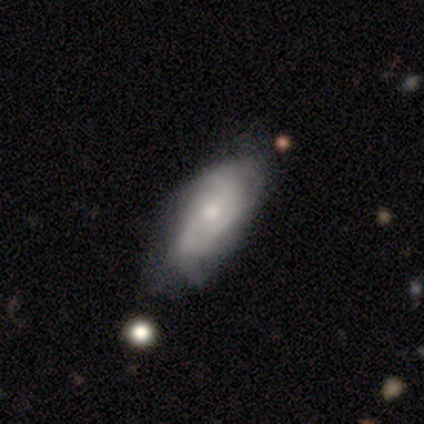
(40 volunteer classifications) Q: Smooth or featured?
A: featured or disk (65%); runner-up: smooth (30%)
Q: Edge-on disk?
A: no (88%); runner-up: yes (12%)
Q: Bar?
A: no (74%); runner-up: weak (22%)
Q: Spiral arms?
A: yes (96%); runner-up: no (4%)
Q: Spiral winding?
A: medium (45%); runner-up: tight (27%)
Q: Spiral arm count?
A: 2 (36%); runner-up: 3 (32%)
Q: Bulge size?
A: small (65%); runner-up: moderate (30%)
Q: Merging?
A: none (61%); runner-up: minor disturbance (29%)